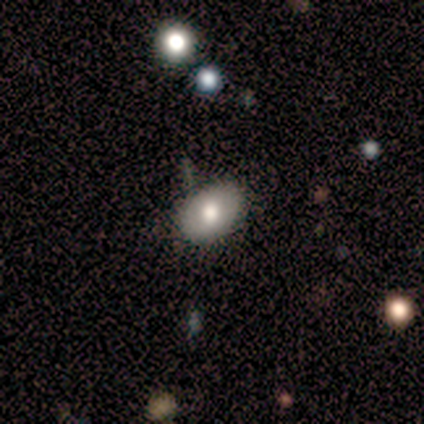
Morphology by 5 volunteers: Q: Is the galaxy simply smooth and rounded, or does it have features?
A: smooth — 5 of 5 (100%).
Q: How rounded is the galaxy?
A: in between — 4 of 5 (80%).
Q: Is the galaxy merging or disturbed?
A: minor disturbance — 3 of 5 (60%).